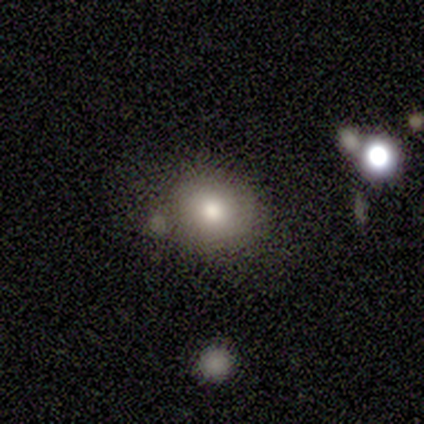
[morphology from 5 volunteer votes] A smooth galaxy with no disk features (100%) that is round (80%). Merging: none (80%).